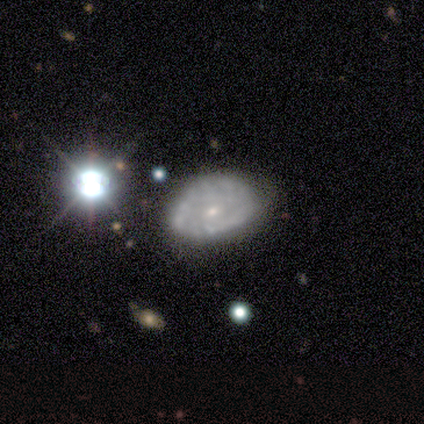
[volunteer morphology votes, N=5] Volunteers were most divided on "smooth or featured": smooth: 60%, featured or disk: 40%, star or artifact: 0%. More confident: how rounded — in between (100%); merging — none (60%).